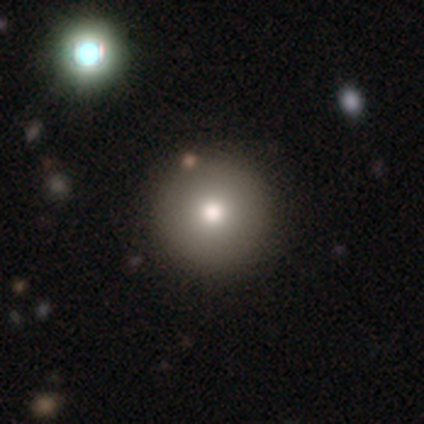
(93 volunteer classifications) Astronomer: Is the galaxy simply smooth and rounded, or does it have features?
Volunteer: smooth — 74%.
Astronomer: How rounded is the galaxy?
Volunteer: round — 100%.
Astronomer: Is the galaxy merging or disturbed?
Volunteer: none — 89%.